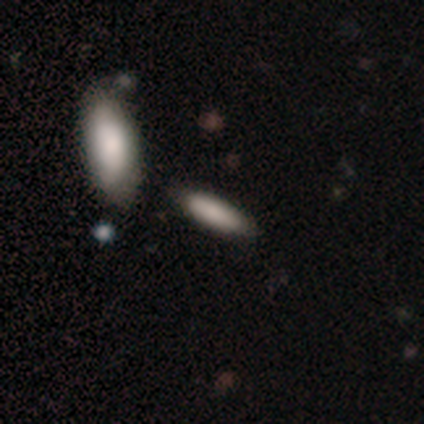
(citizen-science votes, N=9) smooth-or-featured: smooth: 78% | featured or disk: 11% | star or artifact: 11%
  how-rounded: cigar-shaped: 57% | in between: 43% | round: 0%
  merging: none: 62% | merger: 25% | minor disturbance: 12% | major disturbance: 0%